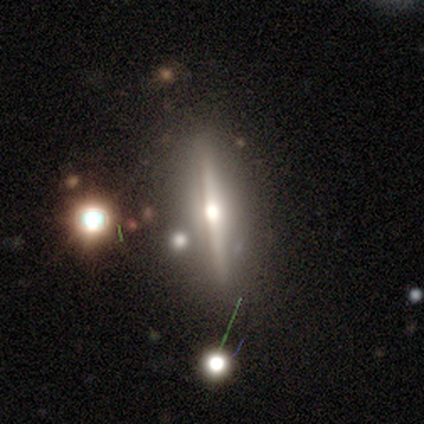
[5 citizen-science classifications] Morphology: type=featured or disk (100%); edge-on=yes (100%); edge-on bulge=rounded (100%); merging=none (100%).